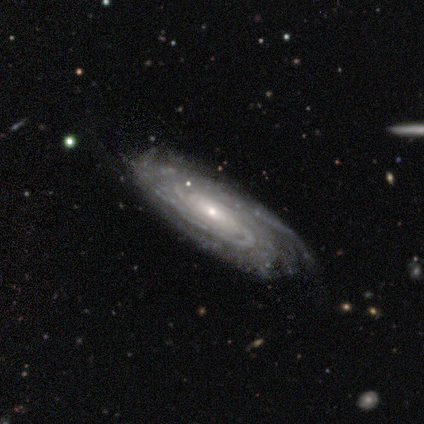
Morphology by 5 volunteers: featured or disk 100%, smooth 0%, star or artifact 0%. Down the decision tree: edge-on disk — no (100%); bar — weak (40%, tied with no); spiral arms — yes (100%); spiral arm count — 3 (60%); spiral winding — tight (60%); bulge size — small (80%); merging — none (100%).